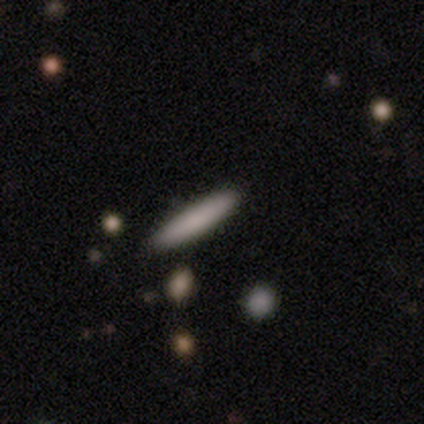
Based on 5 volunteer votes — Volunteers were most divided on "smooth or featured": smooth: 60%, featured or disk: 20%, star or artifact: 20%. More confident: how rounded — cigar-shaped (100%); merging — none (75%).